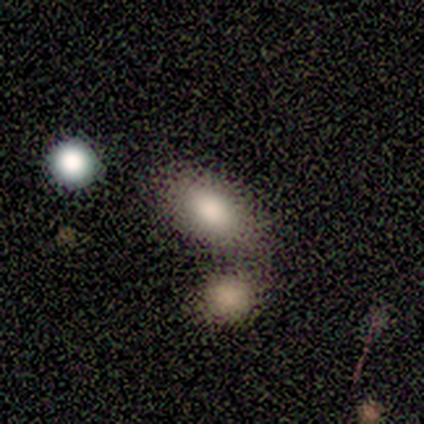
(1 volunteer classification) smooth-or-featured: smooth: 100% | featured or disk: 0% | star or artifact: 0%
  how-rounded: in between: 100% | round: 0% | cigar-shaped: 0%
  merging: minor disturbance: 100% | none: 0% | major disturbance: 0% | merger: 0%